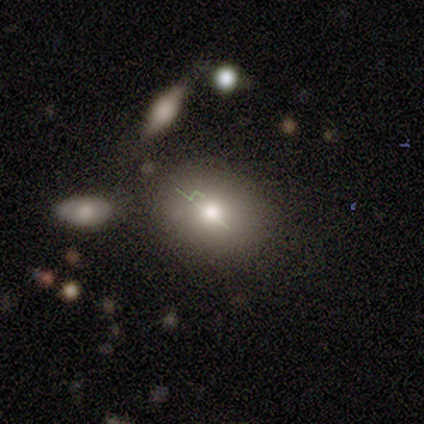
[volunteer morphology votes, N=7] Smooth or featured? 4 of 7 (57%) said smooth. How rounded? 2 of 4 (50%, tied with in between) said round. Merging? 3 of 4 (75%) said none.